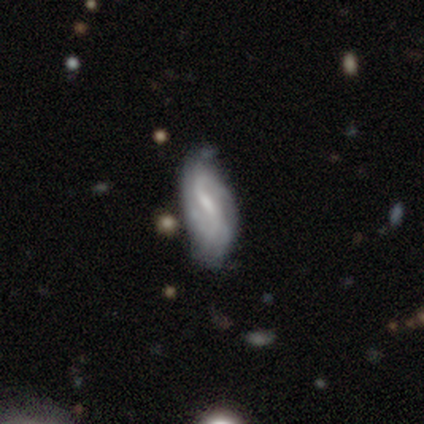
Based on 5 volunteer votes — Volunteers were most divided on "bar": weak: 60%, strong: 40%, no: 0%. More confident: smooth or featured — featured or disk (100%); edge-on disk — no (100%); spiral winding — loose (67%); spiral arm count — 2 (67%); spiral arms — yes (60%); bulge size — small (60%); merging — minor disturbance (60%).